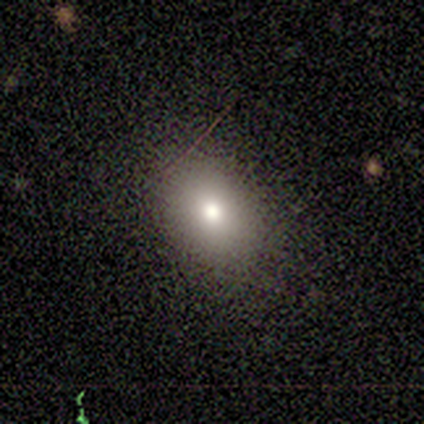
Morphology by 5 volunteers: smooth-or-featured: smooth: 80% | star or artifact: 20% | featured or disk: 0%
  how-rounded: in between: 75% | round: 25% | cigar-shaped: 0%
  merging: none: 75% | minor disturbance: 25% | major disturbance: 0% | merger: 0%